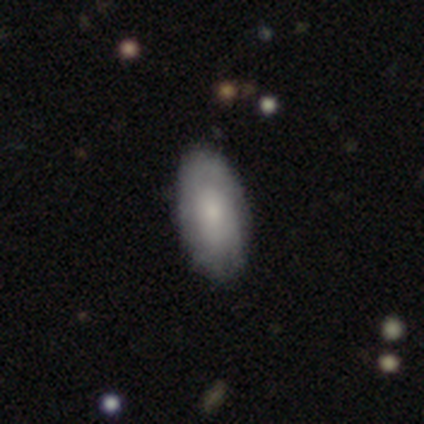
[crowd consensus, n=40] smooth-or-featured: smooth: 52% | featured or disk: 45% | star or artifact: 2%
  how-rounded: in between: 95% | round: 5% | cigar-shaped: 0%
  merging: none: 64% | minor disturbance: 8% | major disturbance: 5% | merger: 0%